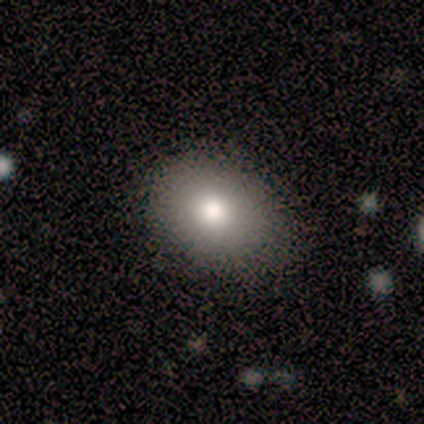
smooth-or-featured: smooth: 80% | featured or disk: 20% | star or artifact: 0%
  how-rounded: round: 75% | in between: 25% | cigar-shaped: 0%
  merging: none: 90% | major disturbance: 10% | minor disturbance: 0% | merger: 0%